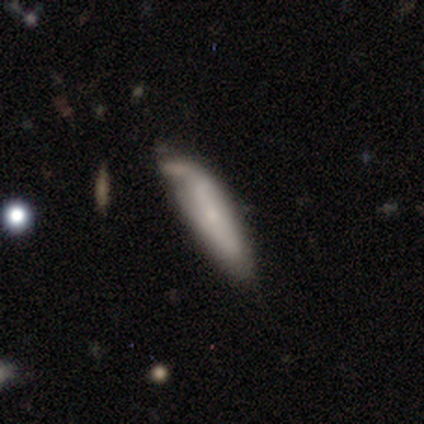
smooth 40% (tied), featured or disk 40% (tied), star or artifact 20%. Down the decision tree: how rounded — cigar-shaped (100%); merging — minor disturbance (75%).